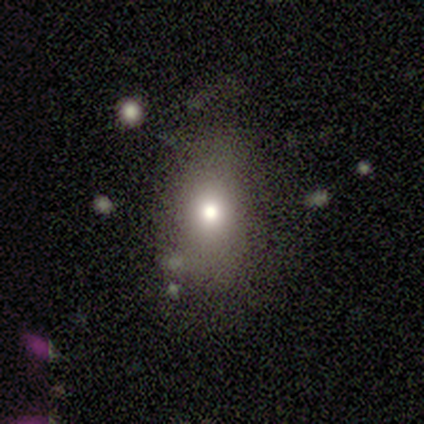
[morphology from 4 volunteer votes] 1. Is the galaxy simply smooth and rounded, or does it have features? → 100% smooth, 0% featured or disk, 0% star or artifact.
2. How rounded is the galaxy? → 50% round (tied), 50% in between (tied), 0% cigar-shaped.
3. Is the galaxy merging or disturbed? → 75% none, 25% minor disturbance, 0% major disturbance, 0% merger.